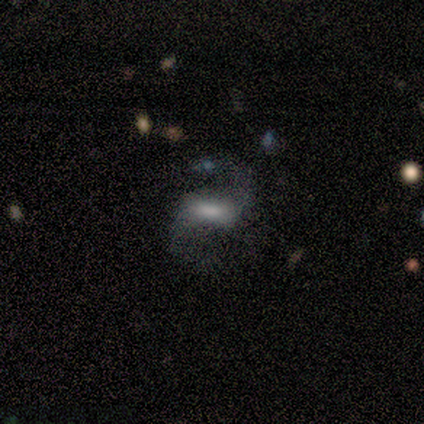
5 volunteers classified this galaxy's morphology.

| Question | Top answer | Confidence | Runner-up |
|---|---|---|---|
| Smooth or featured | featured or disk | 80% | smooth (20%) |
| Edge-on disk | no | 100% | — |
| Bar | weak | 75% | strong (25%) |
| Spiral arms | yes | 100% | — |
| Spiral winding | loose | 75% | medium (25%) |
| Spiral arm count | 2 | 100% | — |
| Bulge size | small | 50% | moderate (25%) |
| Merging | none | 80% | major disturbance (20%) |